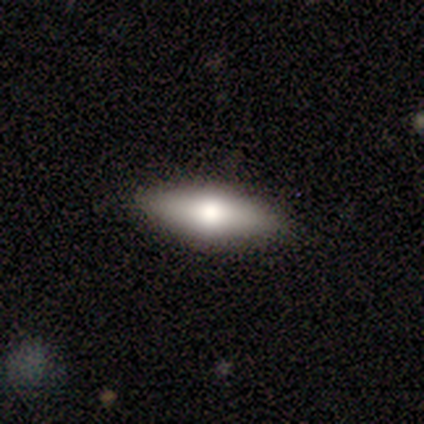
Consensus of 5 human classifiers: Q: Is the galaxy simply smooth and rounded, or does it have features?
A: featured or disk — 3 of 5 (60%).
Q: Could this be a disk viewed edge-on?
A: yes — 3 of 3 (100%).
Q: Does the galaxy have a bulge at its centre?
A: rounded — 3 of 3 (100%).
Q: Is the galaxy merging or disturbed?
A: none — 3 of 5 (60%).